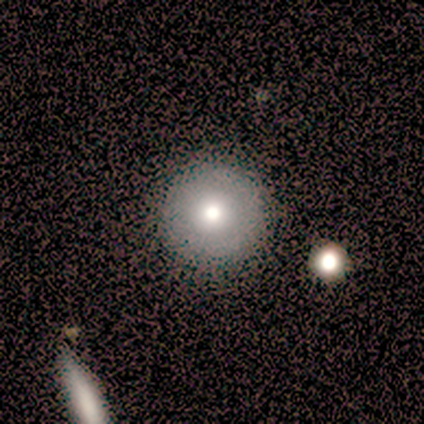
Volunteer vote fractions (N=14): This is likely a smooth galaxy (64%). How rounded: clearly round (89%). Merging: clearly none (91%).